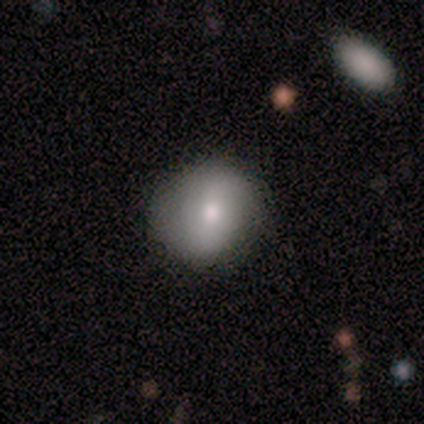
smooth_or_featured: smooth (p=0.80) [alt: featured or disk p=0.20]
how_rounded: round (p=1.00)
merging: none (p=0.80) [alt: minor disturbance p=0.20]